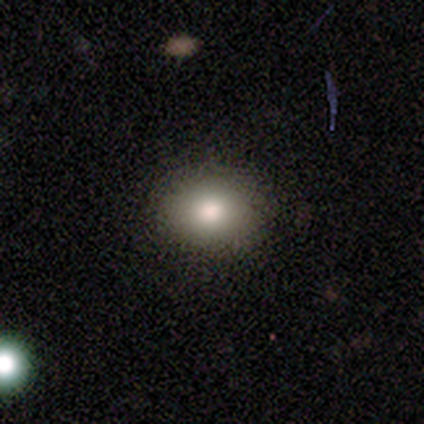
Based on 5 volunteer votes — smooth_or_featured: smooth (p=0.80) [alt: featured or disk p=0.20]
how_rounded: in between (p=0.75) [alt: round p=0.25]
merging: none (p=0.80) [alt: minor disturbance p=0.20]